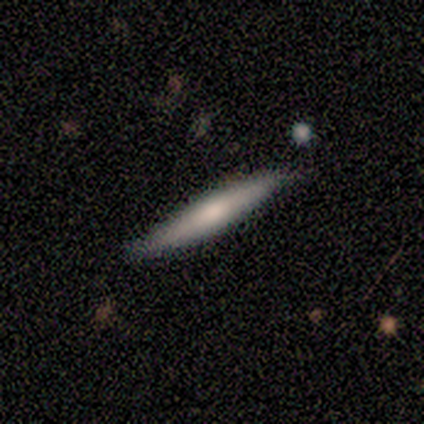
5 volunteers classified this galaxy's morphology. Volunteers were most divided on "smooth or featured": smooth: 60%, featured or disk: 40%, star or artifact: 0%. More confident: how rounded — cigar-shaped (100%); merging — none (80%).